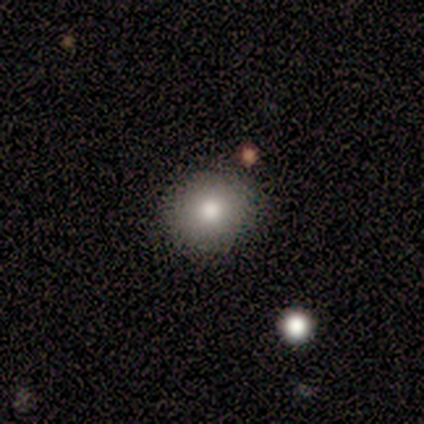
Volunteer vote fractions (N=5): Smooth or featured: smooth — 60% (featured or disk — 20%)
How rounded: round — 67% (in between — 33%)
Merging: none — 100%